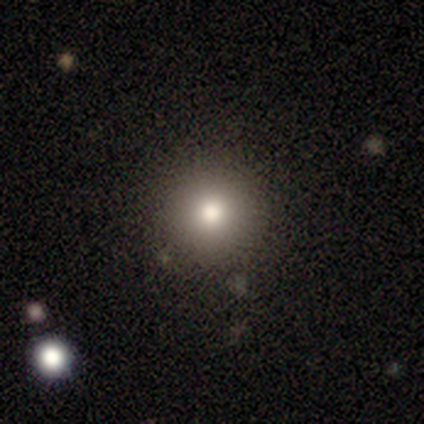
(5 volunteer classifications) Smooth or featured? 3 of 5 (60%) said smooth. How rounded? 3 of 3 (100%) said round. Merging? 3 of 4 (75%) said none.